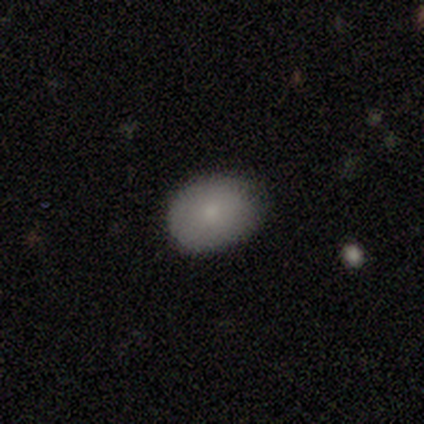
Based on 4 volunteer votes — Smooth or featured? 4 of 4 (100%) said smooth. How rounded? 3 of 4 (75%) said in between. Merging? 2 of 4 (50%, tied with minor disturbance) said none.